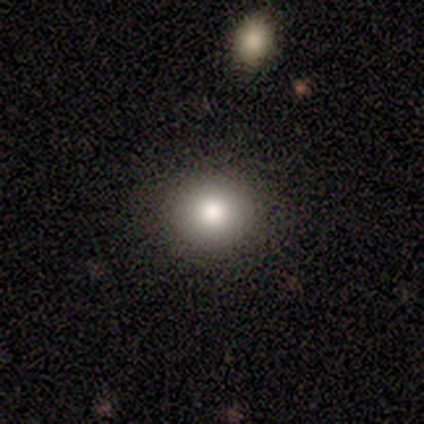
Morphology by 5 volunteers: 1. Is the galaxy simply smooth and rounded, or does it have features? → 100% smooth, 0% featured or disk, 0% star or artifact.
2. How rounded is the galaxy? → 80% round, 20% in between, 0% cigar-shaped.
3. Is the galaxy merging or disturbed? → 60% none, 40% minor disturbance, 0% major disturbance, 0% merger.